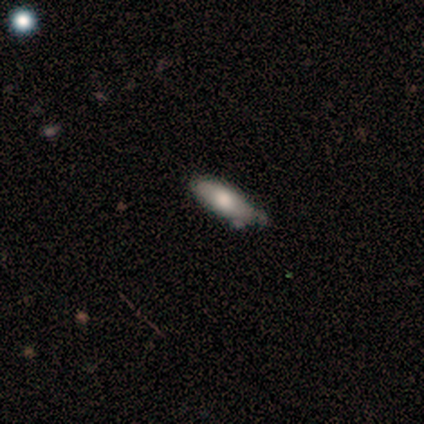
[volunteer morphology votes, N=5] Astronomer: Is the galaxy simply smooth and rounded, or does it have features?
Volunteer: smooth — 40%, tied with featured or disk at 40%.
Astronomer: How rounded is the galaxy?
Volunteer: in between — 50%, tied with cigar-shaped at 50%.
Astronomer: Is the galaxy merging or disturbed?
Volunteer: none — 50%, tied with minor disturbance at 50%.